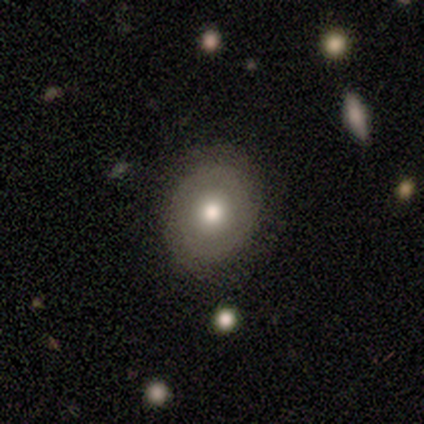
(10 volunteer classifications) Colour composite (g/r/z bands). It shows a smooth galaxy with no disk features (60%) that is round (67%). Merging: none (90%).